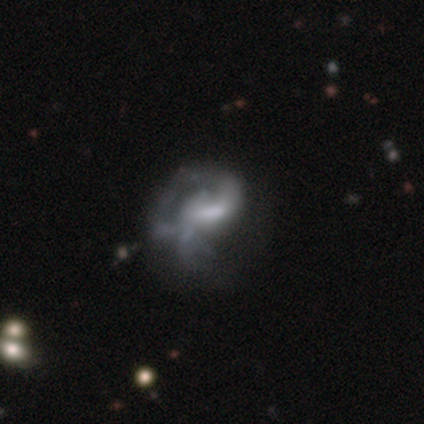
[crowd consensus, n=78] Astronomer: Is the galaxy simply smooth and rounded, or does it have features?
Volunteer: featured or disk — 77%.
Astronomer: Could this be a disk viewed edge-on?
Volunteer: no — 97%.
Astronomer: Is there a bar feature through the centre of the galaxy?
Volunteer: weak — 52% (runner-up: no, 29%).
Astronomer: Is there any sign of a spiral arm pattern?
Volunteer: yes — 67%.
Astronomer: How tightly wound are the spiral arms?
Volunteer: loose — 54% (runner-up: medium, 36%).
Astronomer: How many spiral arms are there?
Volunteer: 1 — 44% (runner-up: 2, 33%).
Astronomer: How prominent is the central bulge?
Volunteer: none — 45% (runner-up: moderate, 29%).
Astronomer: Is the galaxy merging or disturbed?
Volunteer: major disturbance — 31% (runner-up: none, 10%).